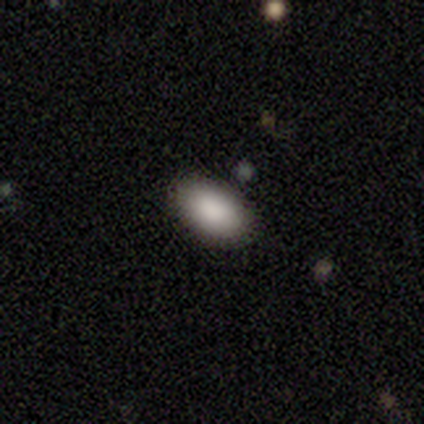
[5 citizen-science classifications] Morphology: type=smooth (100%); roundness=in between (100%); merging=none (100%).